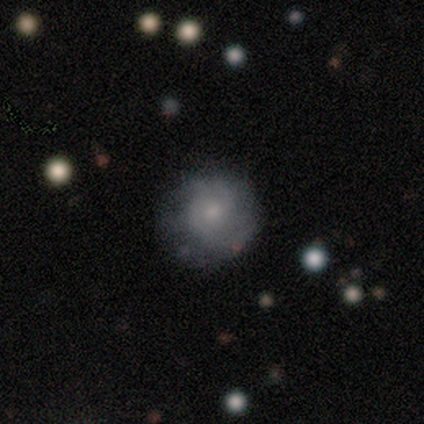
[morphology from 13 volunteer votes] featured or disk 69%, smooth 15%, star or artifact 15%. Down the decision tree: edge-on disk — no (100%); bar — no (78%); spiral arms — yes (100%); spiral arm count — can't tell (56%); spiral winding — tight (56%); bulge size — small (56%); merging — none (64%).